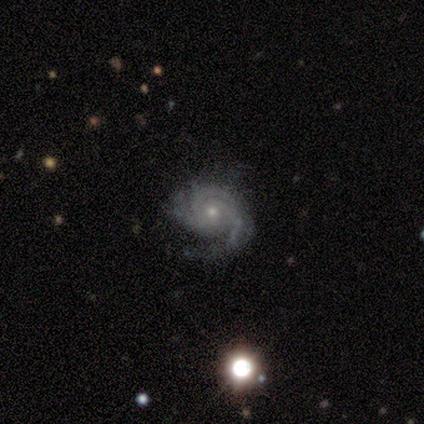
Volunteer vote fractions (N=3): featured or disk 100%, smooth 0%, star or artifact 0%. Down the decision tree: edge-on disk — no (100%); bar — no (67%); spiral arms — yes (100%); spiral arm count — 3 (67%); spiral winding — tight (100%); bulge size — small (100%); merging — none (67%).